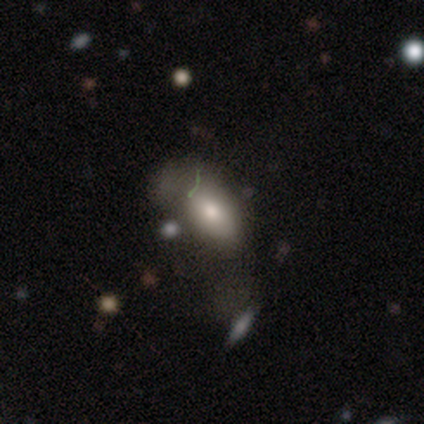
smooth_or_featured: smooth (p=0.70) [alt: featured or disk p=0.19]
how_rounded: in between (p=0.94) [alt: round p=0.03]
merging: major disturbance (p=0.40) [alt: minor disturbance p=0.26]